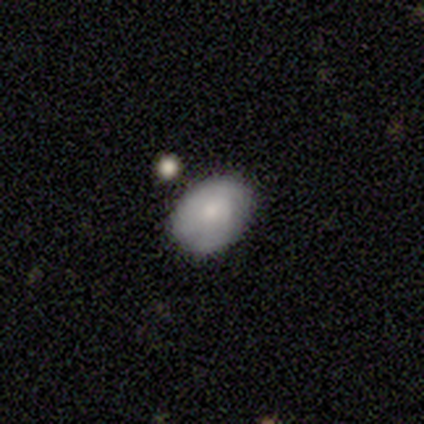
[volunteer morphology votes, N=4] Smooth or featured?
  - smooth: 100% *
  - featured or disk: 0%
  - star or artifact: 0%
How rounded?
  - in between: 75% *
  - round: 25%
  - cigar-shaped: 0%
Merging?
  - none: 100% *
  - minor disturbance: 0%
  - major disturbance: 0%
  - merger: 0%